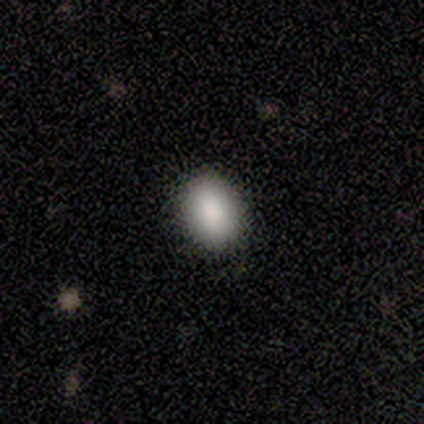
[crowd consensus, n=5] This is clearly a smooth galaxy (80%). How rounded: likely round (75%). Merging: clearly none (100%).